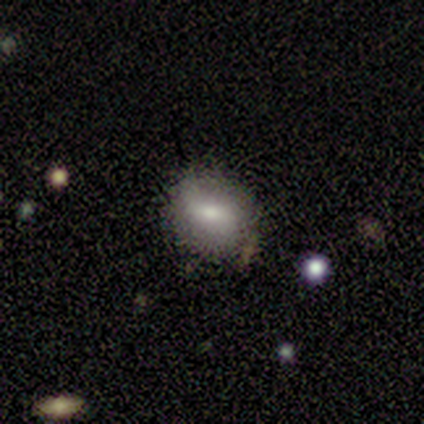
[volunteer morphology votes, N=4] smooth_or_featured: smooth (p=0.50) [tied with: featured or disk p=0.50]
how_rounded: round (p=0.50) [tied with: in between p=0.50]
merging: none (p=1.00)